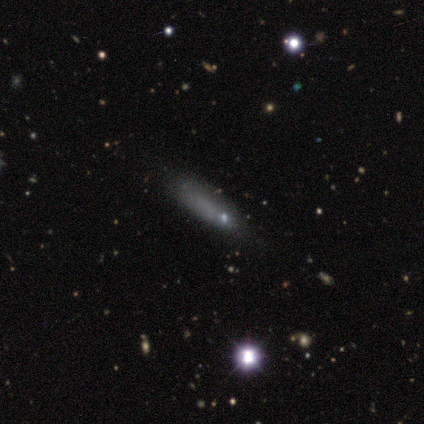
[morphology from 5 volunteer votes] Overall: smooth (60%; featured or disk 20%). How rounded: cigar-shaped (67%; in between 33%). Merging: none (50%; minor disturbance 25%).